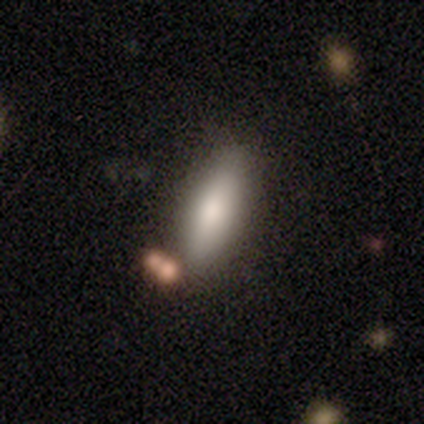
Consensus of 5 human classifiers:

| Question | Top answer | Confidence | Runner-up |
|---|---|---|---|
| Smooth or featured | smooth | 80% | featured or disk (20%) |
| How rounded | in between | 75% | cigar-shaped (25%) |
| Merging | none | 100% | — |